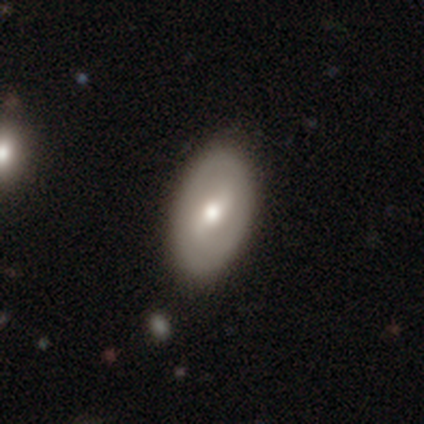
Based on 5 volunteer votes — Smooth or featured?
  - featured or disk: 60% *
  - smooth: 40%
  - star or artifact: 0%
Edge-on disk?
  - no: 100% *
  - yes: 0%
Bar?
  - weak: 67% *
  - strong: 33%
  - no: 0%
Spiral arms?
  - no: 67% *
  - yes: 33%
Bulge size?
  - large: 67% *
  - moderate: 33%
  - dominant: 0%
  - small: 0%
  - none: 0%
Merging?
  - none: 60% *
  - minor disturbance: 20%
  - merger: 20%
  - major disturbance: 0%